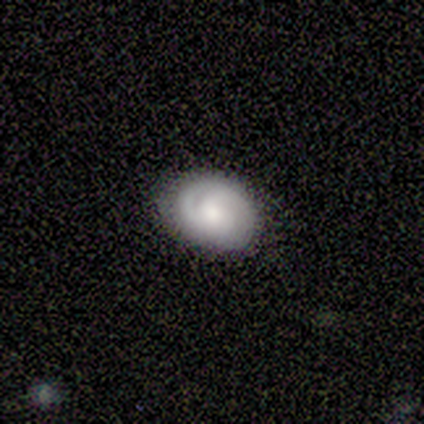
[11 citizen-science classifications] Volunteers were most divided on "spiral arms" (2-way tie): yes: 50%, no: 50%. More confident: edge-on disk — no (100%); bar — no (100%); spiral winding — medium (100%); merging — none (82%); spiral arm count — 2 (67%); bulge size — moderate (67%); smooth or featured — featured or disk (55%).